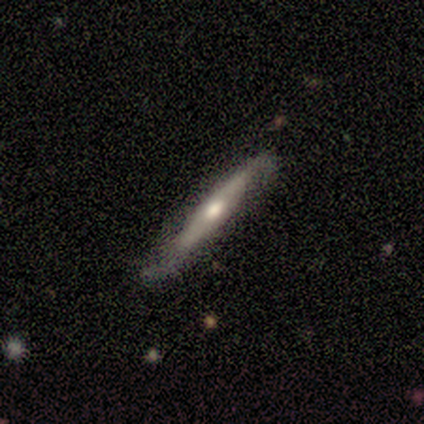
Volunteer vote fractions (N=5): Morphology: type=featured or disk (80%); edge-on=yes (75%); edge-on bulge=rounded (67%); merging=none (60%).